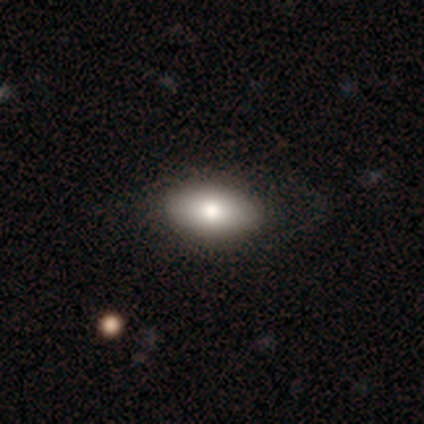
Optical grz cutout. It shows a smooth galaxy with no disk features (70%) that is in between round and cigar-shaped (93%). Merging: none (64%).